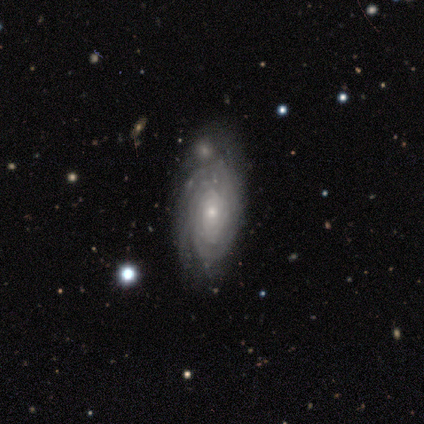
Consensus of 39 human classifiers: A featured or disk galaxy (77%) with no bar (86%), tight (81%) spiral arms (96%) and a small central bulge (75%).

Vote fractions:
- Smooth or featured? featured or disk: 77% / smooth: 15% / star or artifact: 8%
- Edge-on disk? no: 93% / yes: 7%
- Bar? no: 86% / weak: 14% / strong: 0%
- Spiral arms? yes: 96% / no: 4%
- Spiral winding? tight: 81% / medium: 11% / loose: 7%
- Spiral arm count? can't tell: 52% / 3: 19% / more than 4: 19% / 4: 7% / 1: 4% / 2: 0%
- Bulge size? small: 75% / moderate: 18% / large: 4% / none: 4% / dominant: 0%
- Merging? none: 56% / minor disturbance: 31% / merger: 8% / major disturbance: 6%